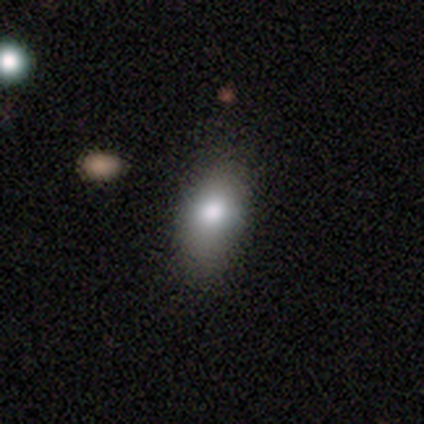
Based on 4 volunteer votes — This appears to be a smooth galaxy with no disk features (75%) that is in between round and cigar-shaped (100%). Merging: minor disturbance (67%).